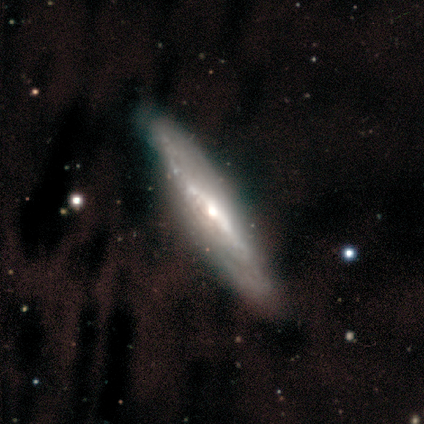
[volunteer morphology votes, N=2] smooth_or_featured: smooth (p=0.50) [tied with: featured or disk p=0.50]
how_rounded: cigar-shaped (p=1.00)
merging: none (p=1.00)